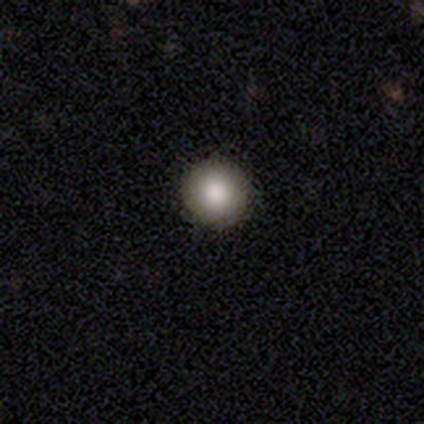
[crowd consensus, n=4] This appears to be a smooth galaxy with no disk features (100%) that is round (100%). Merging: none (100%).